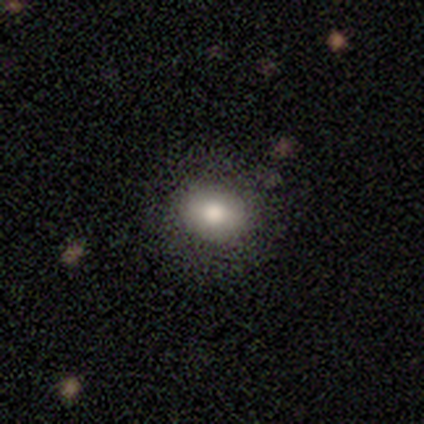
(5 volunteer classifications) Morphology: type=smooth (80%); roundness=in between (100%); merging=none (80%).